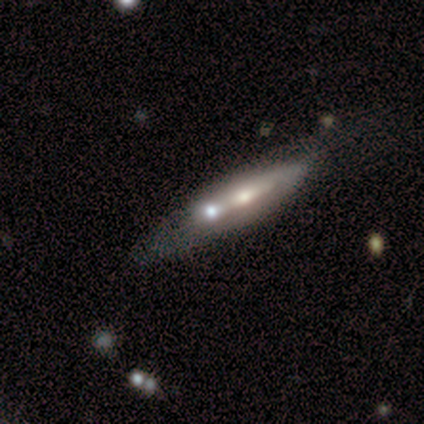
smooth_or_featured: featured or disk (p=1.00)
disk_edge_on: yes (p=1.00)
edge_on_bulge: rounded (p=1.00)
merging: merger (p=1.00)